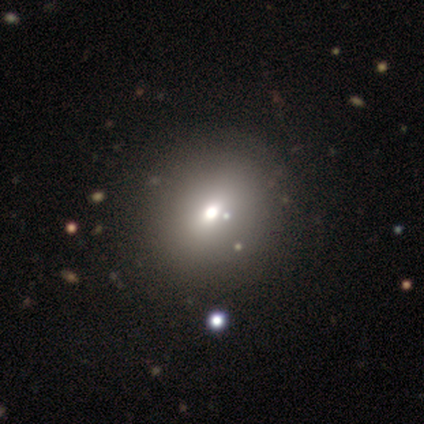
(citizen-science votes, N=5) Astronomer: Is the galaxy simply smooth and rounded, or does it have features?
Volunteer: smooth — 80%.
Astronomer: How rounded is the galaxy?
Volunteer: round — 75%.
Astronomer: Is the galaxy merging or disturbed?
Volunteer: none — 100%.